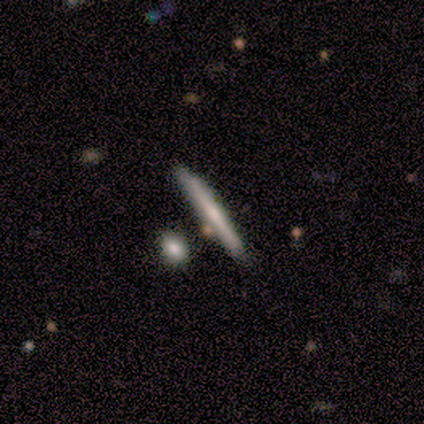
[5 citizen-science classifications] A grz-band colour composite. It shows a featured or disk galaxy (60%) viewed edge-on (100%) with no central bulge (67%). Merging: none (80%).